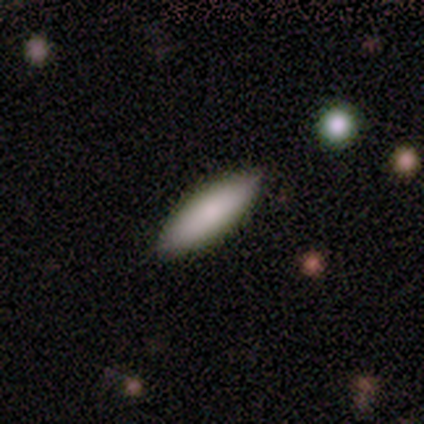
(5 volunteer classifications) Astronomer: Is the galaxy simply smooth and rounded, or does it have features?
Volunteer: smooth — 80%.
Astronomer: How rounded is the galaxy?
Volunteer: in between — 75%.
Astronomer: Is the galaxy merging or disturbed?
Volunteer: none — 100%.